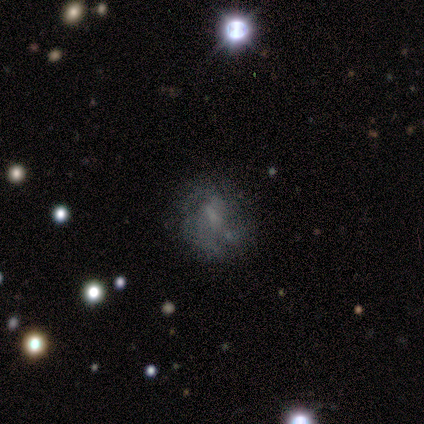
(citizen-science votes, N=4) Overall: featured or disk (50%; smooth 25%). Edge-on disk: yes (50%, tied with no). Edge-on bulge: rounded (100%). Merging: none (67%; merger 33%).